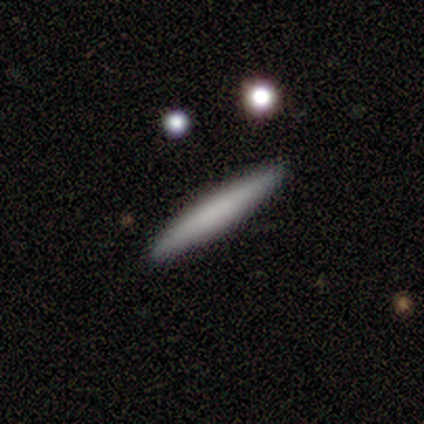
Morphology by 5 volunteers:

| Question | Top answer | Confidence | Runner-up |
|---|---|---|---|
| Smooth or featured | smooth | 80% | featured or disk (20%) |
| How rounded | cigar-shaped | 100% | — |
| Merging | none | 100% | — |